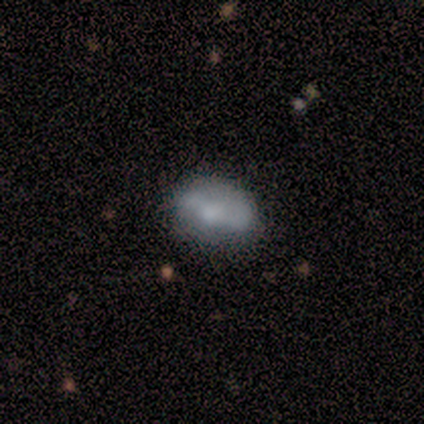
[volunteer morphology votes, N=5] type=featured or disk (60%); edge-on=no (100%); bar=no (67%); spiral arms=no (100%); bulge=moderate (67%); merging=none (67%).